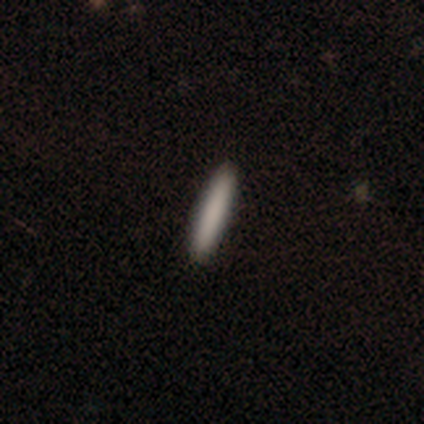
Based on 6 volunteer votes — smooth 100%, featured or disk 0%, star or artifact 0%. Down the decision tree: how rounded — cigar-shaped (83%); merging — none (100%).